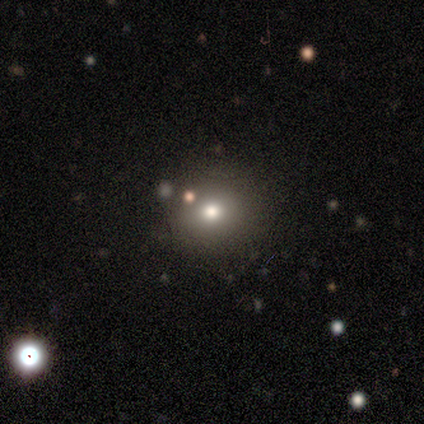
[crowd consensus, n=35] smooth 60%, star or artifact 23%, featured or disk 17%. Down the decision tree: how rounded — round (100%); merging — none (89%).